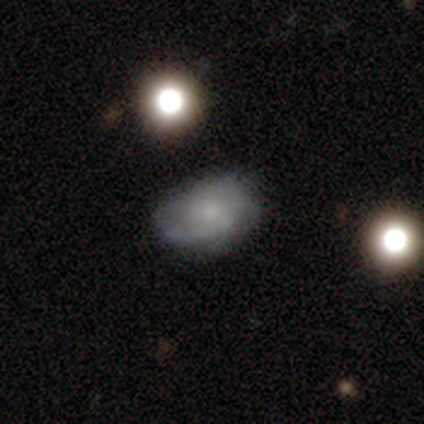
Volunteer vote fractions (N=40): A smooth galaxy with no disk features (50%) that is in between round and cigar-shaped (75%). Merging: none (62%).